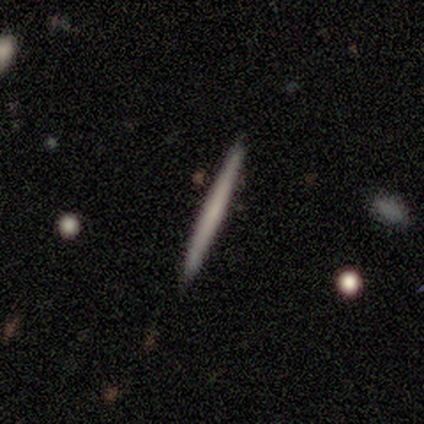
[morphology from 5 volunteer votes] smooth-or-featured: smooth: 80% | featured or disk: 20% | star or artifact: 0%
  how-rounded: cigar-shaped: 100% | round: 0% | in between: 0%
  merging: none: 100% | minor disturbance: 0% | major disturbance: 0% | merger: 0%